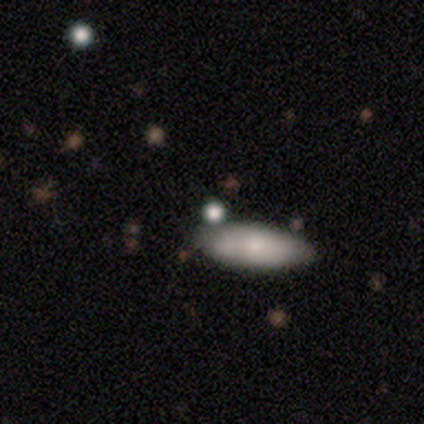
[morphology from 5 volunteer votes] Volunteers were most divided on "smooth or featured": smooth: 60%, featured or disk: 40%, star or artifact: 0%. More confident: merging — none (80%); how rounded — cigar-shaped (67%).